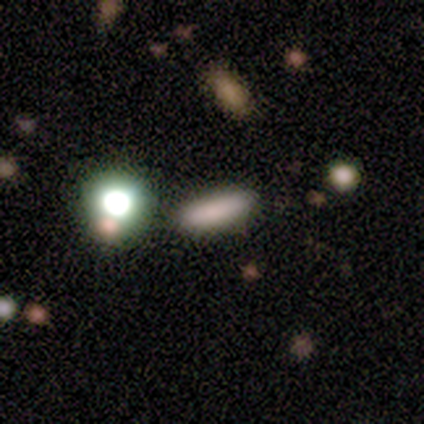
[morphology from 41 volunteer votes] type=smooth (59%); roundness=cigar-shaped (62%); merging=none (73%).